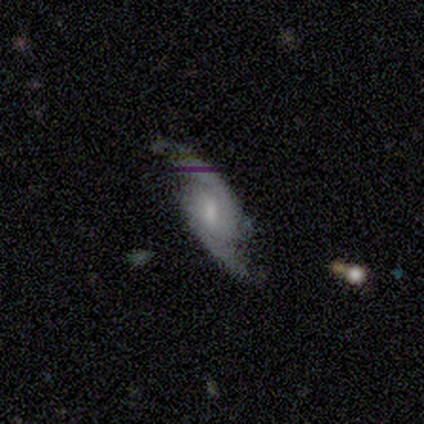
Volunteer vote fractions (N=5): Smooth or featured? featured or disk (100%)
Edge-on disk? no (100%)
Bar? no (60%)
Spiral arms? yes (100%)
Spiral winding? loose (80%)
Spiral arm count? 2 (80%)
Bulge size? small (60%)
Merging? none (60%)